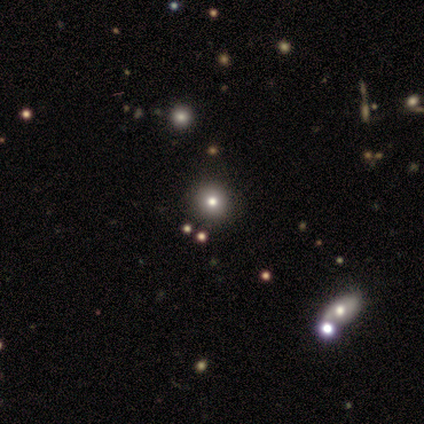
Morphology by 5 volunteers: Smooth or featured: smooth — 40% (tied with star or artifact — 40%)
How rounded: round — 100%
Merging: none — 67% (minor disturbance — 33%)